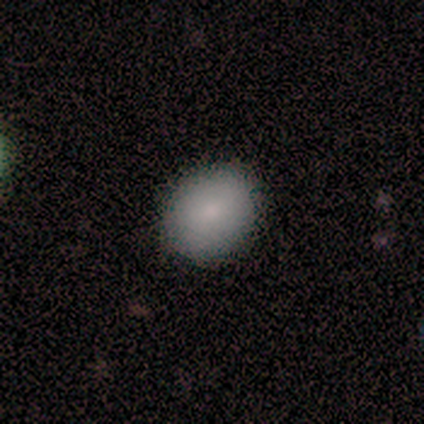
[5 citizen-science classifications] This appears to be a smooth galaxy with no disk features (60%) that is round (67%). Merging: none (100%).